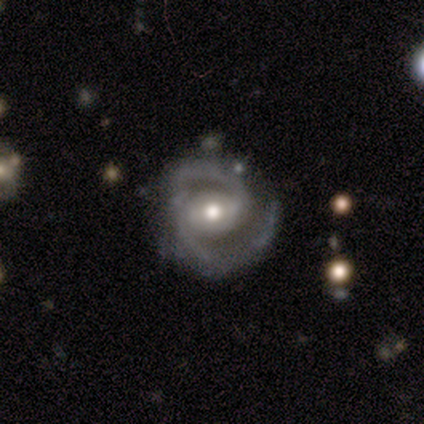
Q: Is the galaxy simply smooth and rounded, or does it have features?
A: featured or disk — 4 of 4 (100%).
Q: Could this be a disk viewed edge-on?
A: no — 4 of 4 (100%).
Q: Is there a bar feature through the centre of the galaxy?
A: weak — 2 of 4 (50%).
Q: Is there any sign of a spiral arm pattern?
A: yes — 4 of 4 (100%).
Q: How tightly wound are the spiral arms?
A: tight — 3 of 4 (75%).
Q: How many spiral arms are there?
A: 2 — 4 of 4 (100%).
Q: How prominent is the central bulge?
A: moderate — 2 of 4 (50%).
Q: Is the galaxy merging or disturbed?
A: none — 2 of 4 (50%).